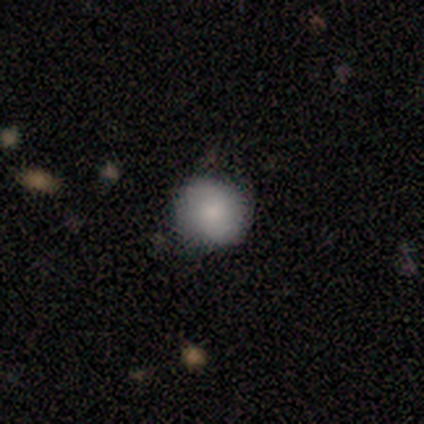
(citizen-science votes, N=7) smooth-or-featured: smooth: 100% | featured or disk: 0% | star or artifact: 0%
  how-rounded: round: 57% | in between: 43% | cigar-shaped: 0%
  merging: none: 86% | minor disturbance: 14% | major disturbance: 0% | merger: 0%